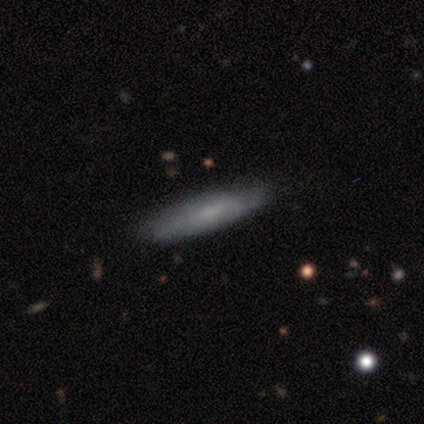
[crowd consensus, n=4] Overall: smooth (50%, tied with featured or disk). How rounded: in between (50%, tied with cigar-shaped). Merging: none (75%).